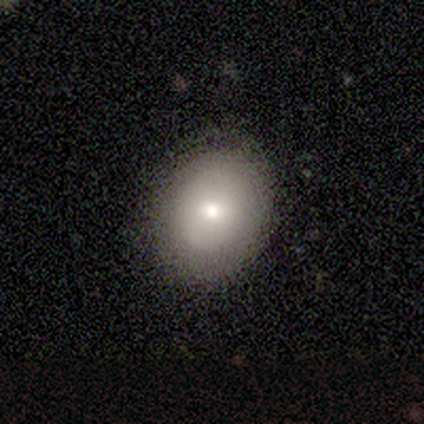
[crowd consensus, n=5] Q: Smooth or featured?
A: featured or disk (60%); runner-up: smooth (40%)
Q: Edge-on disk?
A: no (100%)
Q: Bar?
A: no (100%)
Q: Spiral arms?
A: no (67%); runner-up: yes (33%)
Q: Bulge size?
A: small (67%); runner-up: moderate (33%)
Q: Merging?
A: none (100%)